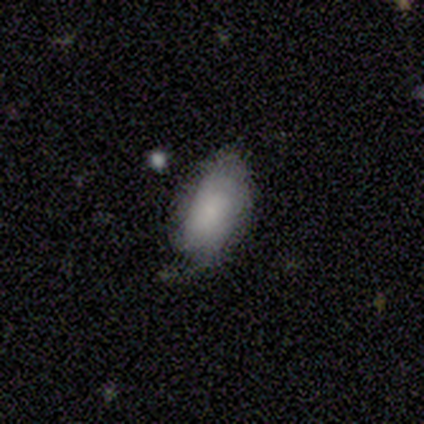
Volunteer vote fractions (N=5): Morphology: type=smooth (60%); roundness=in between (100%); merging=minor disturbance (60%).